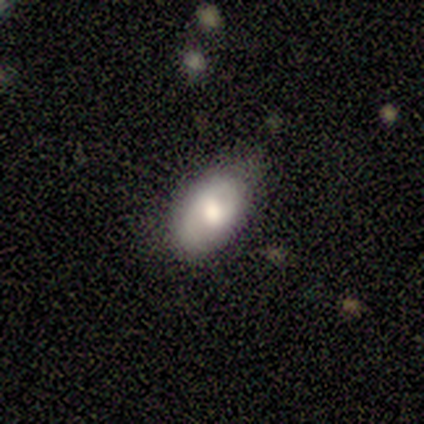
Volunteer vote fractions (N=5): This is likely a smooth galaxy (60%). How rounded: clearly in between (100%). Merging: likely none (75%).